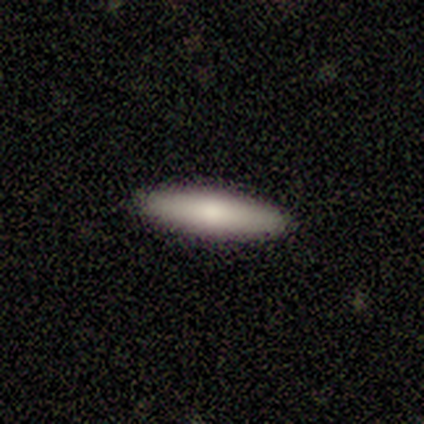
smooth 80%, star or artifact 20%, featured or disk 0%. Down the decision tree: how rounded — cigar-shaped (100%); merging — none (100%).